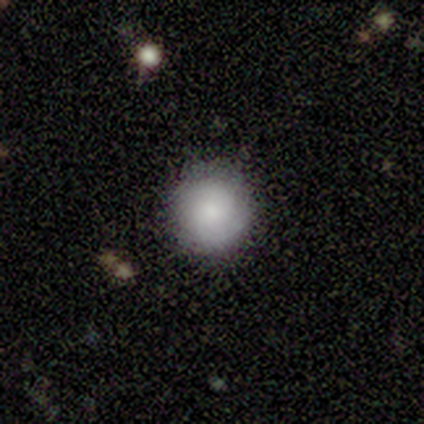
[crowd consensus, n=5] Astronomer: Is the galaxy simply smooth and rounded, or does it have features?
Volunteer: smooth — 60% (runner-up: featured or disk, 40%).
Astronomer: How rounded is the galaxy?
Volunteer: round — 67%.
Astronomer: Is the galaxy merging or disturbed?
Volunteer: none — 80%.